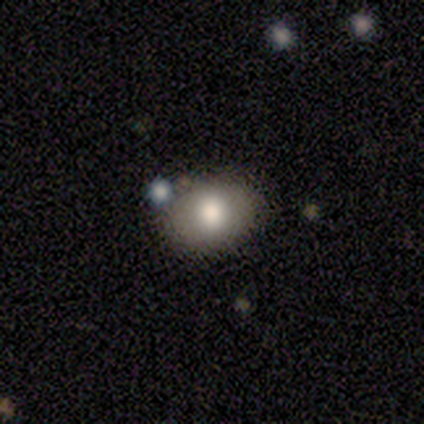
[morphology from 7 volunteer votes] A smooth galaxy with no disk features (43%, tied with featured or disk) that is in between round and cigar-shaped (100%).

Vote fractions:
- Smooth or featured? smooth: 43% (tied) / featured or disk: 43% (tied) / star or artifact: 14%
- How rounded? in between: 100% / round: 0% / cigar-shaped: 0%
- Merging? none: 67% / merger: 33% / minor disturbance: 0% / major disturbance: 0%